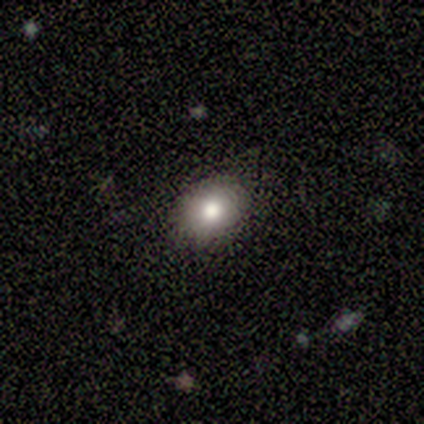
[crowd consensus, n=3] Q: Smooth or featured?
A: smooth (67%); runner-up: featured or disk (33%)
Q: How rounded?
A: round (50%); tied with: in between (50%)
Q: Merging?
A: none (67%); runner-up: minor disturbance (33%)